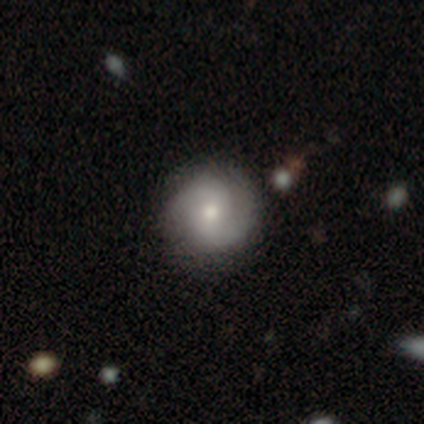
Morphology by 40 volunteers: featured or disk 70%, smooth 22%, star or artifact 8%. Down the decision tree: edge-on disk — no (100%); bar — no (68%); spiral arms — yes (93%); spiral arm count — 2 (100%); spiral winding — medium (50%); bulge size — moderate (68%); merging — none (68%).